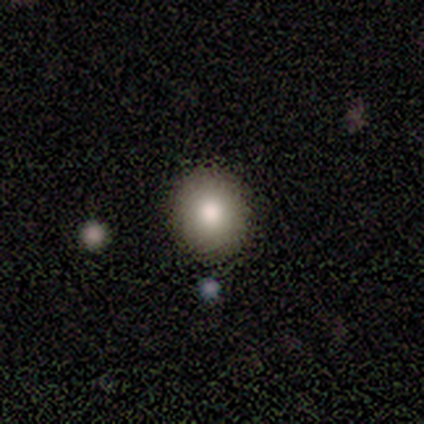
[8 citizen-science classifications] smooth 88%, featured or disk 12%, star or artifact 0%. Down the decision tree: how rounded — round (86%); merging — none (62%).